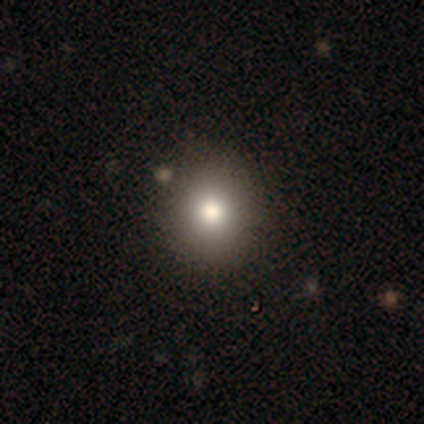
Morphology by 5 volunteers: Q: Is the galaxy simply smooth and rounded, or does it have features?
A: smooth — 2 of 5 (40%, tied with star or artifact).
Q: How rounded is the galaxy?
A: round — 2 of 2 (100%).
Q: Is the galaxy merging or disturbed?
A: none — 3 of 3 (100%).